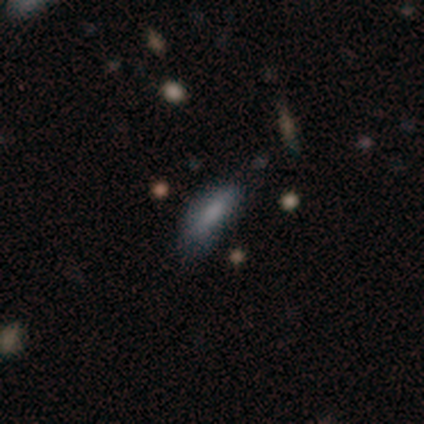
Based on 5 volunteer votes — smooth 80%, featured or disk 20%, star or artifact 0%. Down the decision tree: how rounded — cigar-shaped (75%); merging — minor disturbance (60%).